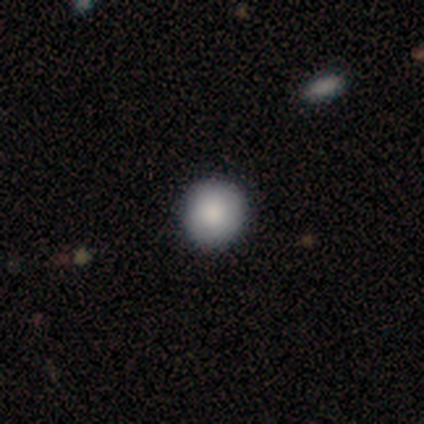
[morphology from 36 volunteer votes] Smooth or featured? 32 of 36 (89%) said smooth. How rounded? 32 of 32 (100%) said round. Merging? 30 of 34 (88%) said none.